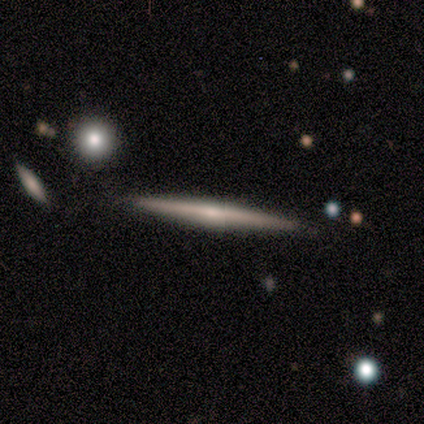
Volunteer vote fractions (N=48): Morphology: type=featured or disk (58%); edge-on=yes (96%); edge-on bulge=rounded (44%); merging=none (80%).